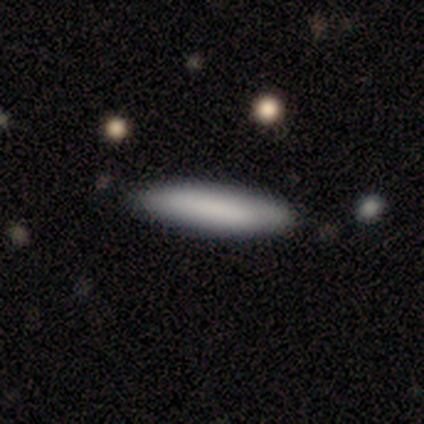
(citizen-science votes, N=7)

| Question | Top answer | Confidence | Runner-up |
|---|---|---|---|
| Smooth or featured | smooth | 71% | featured or disk (14%) |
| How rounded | cigar-shaped | 80% | in between (20%) |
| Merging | none | 67% | minor disturbance (17%) |